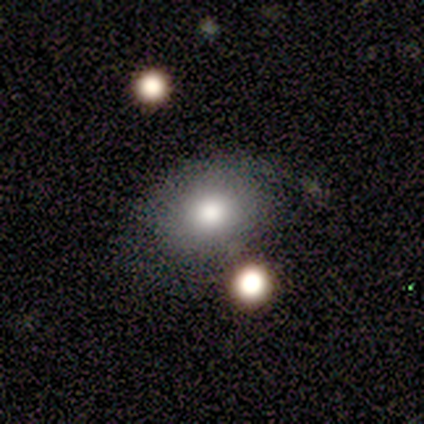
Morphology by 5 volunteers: This is likely a smooth galaxy (60%). How rounded: clearly round (100%). Merging: possibly none (50%, tied with minor disturbance).